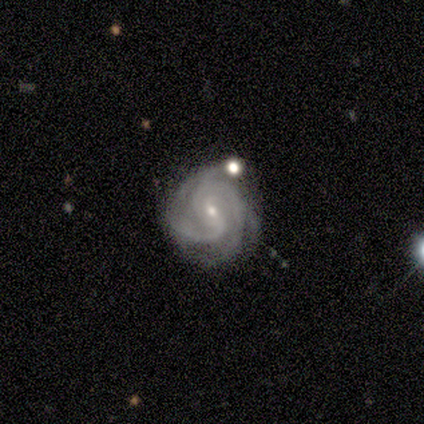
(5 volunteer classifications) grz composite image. It shows a featured or disk galaxy (100%) with a weak bar (60%), 2 (40%, tied with 3) tight (60%) spiral arms (100%) and a small central bulge (80%). Merging: none (40%, tied with minor disturbance).